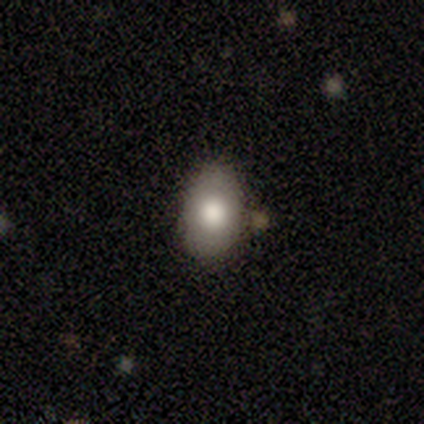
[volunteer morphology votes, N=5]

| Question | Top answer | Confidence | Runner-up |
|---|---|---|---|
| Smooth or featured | smooth | 80% | featured or disk (20%) |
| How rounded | in between | 75% | round (25%) |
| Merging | none | 80% | minor disturbance (20%) |